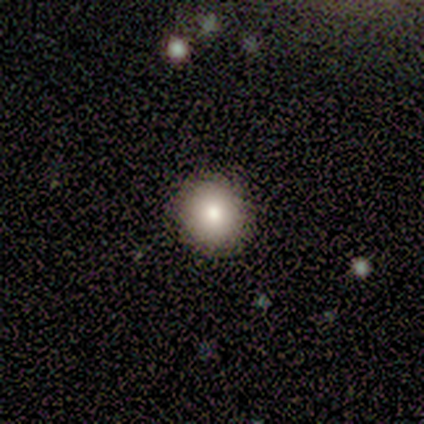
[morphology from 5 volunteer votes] Smooth or featured: smooth — 100%
How rounded: round — 100%
Merging: none — 80% (minor disturbance — 20%)